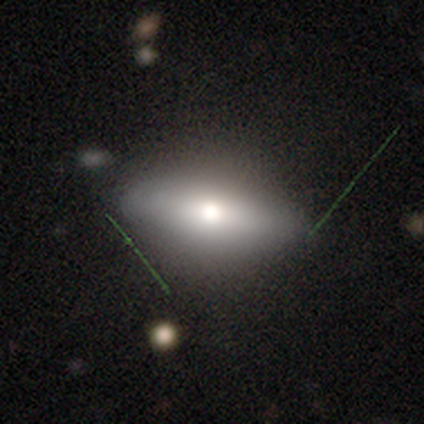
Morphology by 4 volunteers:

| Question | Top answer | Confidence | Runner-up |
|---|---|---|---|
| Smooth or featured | smooth | 75% | featured or disk (25%) |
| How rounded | in between | 100% | — |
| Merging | none | 100% | — |